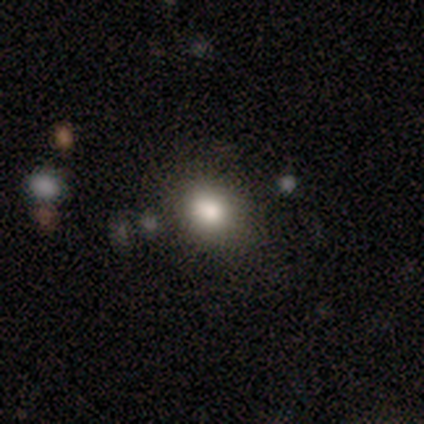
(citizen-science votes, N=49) A smooth galaxy with no disk features (82%) that is round (72%). Merging: none (90%).